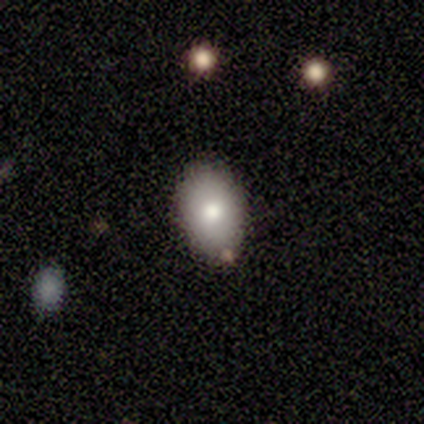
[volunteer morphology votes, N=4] Smooth or featured: smooth — 100%
How rounded: in between — 100%
Merging: none — 75% (minor disturbance — 25%)